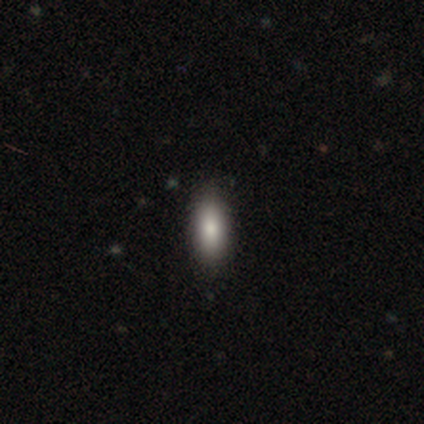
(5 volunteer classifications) This is likely a smooth galaxy (60%). How rounded: likely in between (67%). Merging: clearly none (100%).